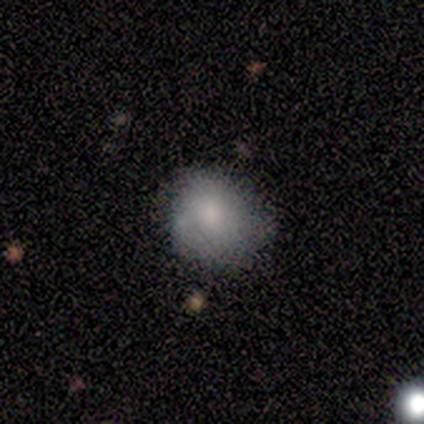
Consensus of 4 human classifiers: This is likely a smooth galaxy (75%). How rounded: likely round (67%). Merging: likely none (67%).